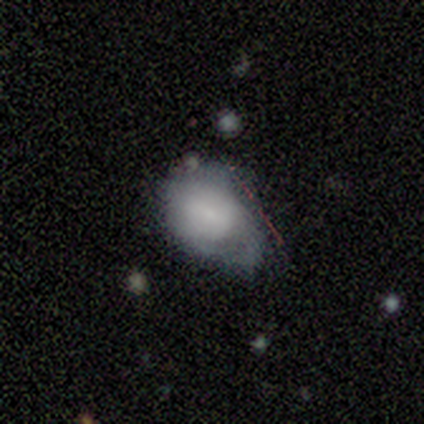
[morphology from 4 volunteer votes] A smooth galaxy with no disk features (75%) that is in between round and cigar-shaped (67%). Merging: major disturbance (50%).